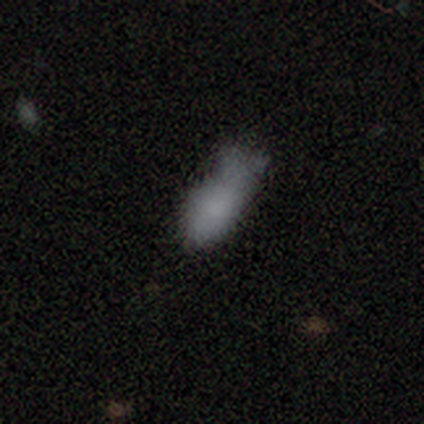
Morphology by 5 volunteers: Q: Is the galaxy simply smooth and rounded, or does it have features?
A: smooth — 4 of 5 (80%).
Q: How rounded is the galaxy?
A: in between — 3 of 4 (75%).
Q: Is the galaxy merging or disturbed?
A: none — 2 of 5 (40%, tied with major disturbance).